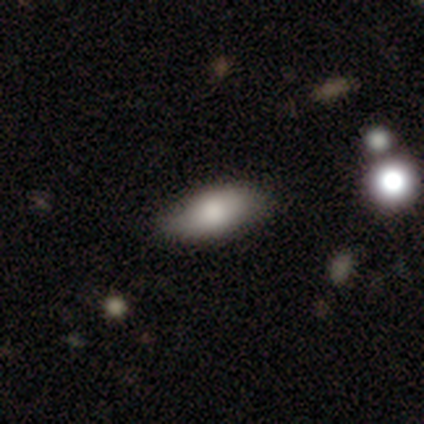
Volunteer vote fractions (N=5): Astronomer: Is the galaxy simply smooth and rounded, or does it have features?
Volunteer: smooth — 100%.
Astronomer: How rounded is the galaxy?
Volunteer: in between — 60% (runner-up: cigar-shaped, 40%).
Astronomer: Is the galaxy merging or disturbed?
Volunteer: none — 60% (runner-up: minor disturbance, 40%).